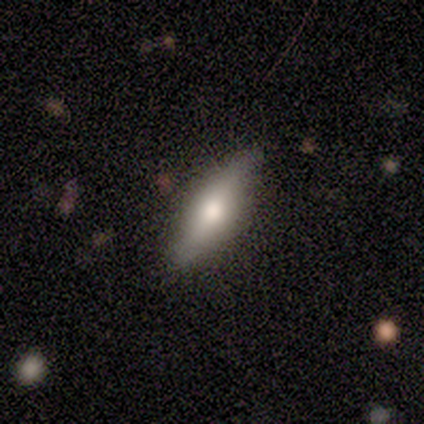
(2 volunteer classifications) A smooth galaxy with no disk features (100%) that is round (50%, tied with in between). Merging: none (100%).